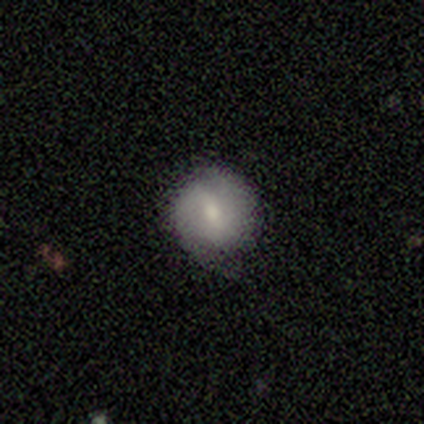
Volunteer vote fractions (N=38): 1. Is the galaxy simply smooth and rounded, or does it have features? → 45% smooth (tied), 45% featured or disk (tied), 11% star or artifact.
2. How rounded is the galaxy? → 94% round, 6% in between, 0% cigar-shaped.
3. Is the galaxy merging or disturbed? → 76% none, 21% minor disturbance, 3% major disturbance, 0% merger.